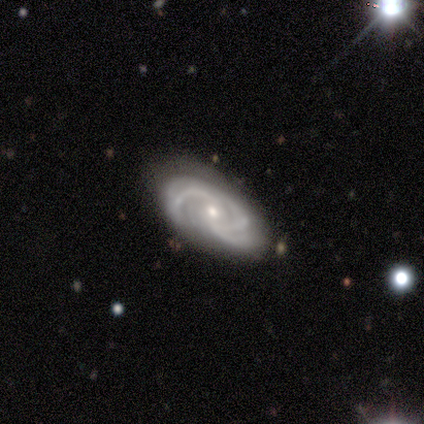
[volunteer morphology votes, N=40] Smooth or featured? 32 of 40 (80%) said featured or disk. Edge-on disk? 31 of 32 (97%) said no. Bar? 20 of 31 (65%) said no. Spiral arms? 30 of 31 (97%) said yes. Spiral winding? 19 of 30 (63%) said medium. Spiral arm count? 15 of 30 (50%) said 3. Bulge size? 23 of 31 (74%) said small. Merging? 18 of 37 (49%) said none.